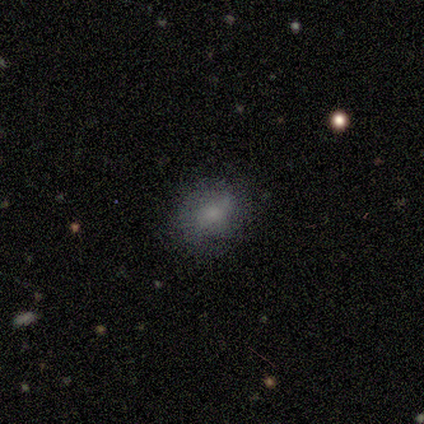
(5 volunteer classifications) A smooth galaxy with no disk features (80%) that is in between round and cigar-shaped (75%). Merging: none (100%).